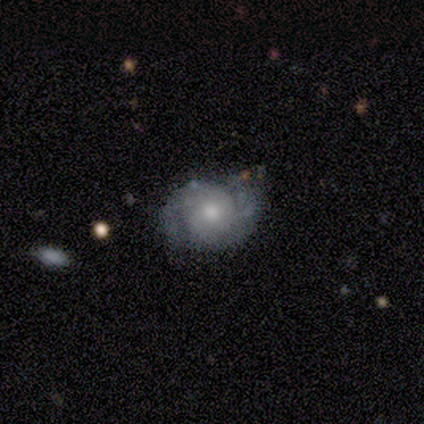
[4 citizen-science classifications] Volunteers were most divided on "merging": none: 50%, minor disturbance: 25%, major disturbance: 25%, merger: 0%. More confident: edge-on disk — no (100%); spiral arms — yes (100%); spiral arm count — 2 (100%); smooth or featured — featured or disk (75%); bar — no (67%); spiral winding — tight (67%); bulge size — moderate (67%).